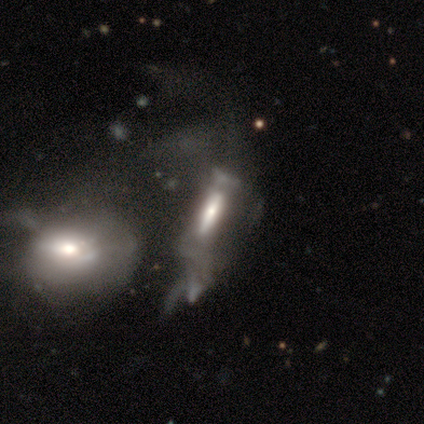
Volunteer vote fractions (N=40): A featured or disk galaxy (68%) with a strong bar (50%), no spiral arms (73%) and a moderate central bulge (45%). Merging: merger (45%).